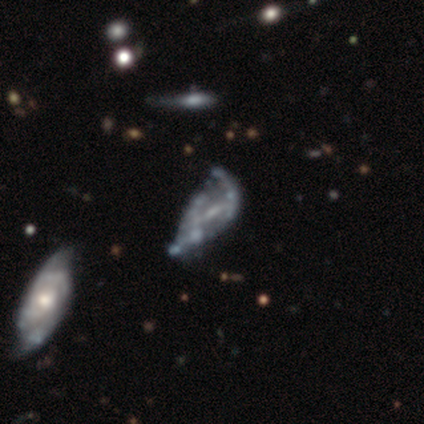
smooth-or-featured: featured or disk: 76% | star or artifact: 14% | smooth: 10%
  disk-edge-on: no: 97% | yes: 3%
    bar: weak: 45% | no: 40% | strong: 16%
    has-spiral-arms: no: 59% | yes: 41%
    bulge-size: small: 45% | none: 43% | moderate: 7% | dominant: 3% | large: 2%
  merging: none: 18% | merger: 16% | major disturbance: 13% | minor disturbance: 10%